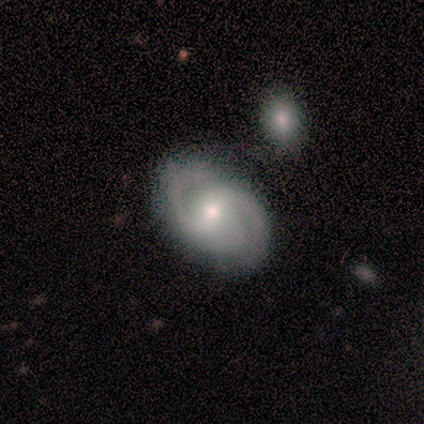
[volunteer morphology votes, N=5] type=featured or disk (100%); edge-on=no (100%); bar=weak (60%); spiral arms=yes (100%); winding=medium (60%); arm count=3 (60%); bulge=small (80%); merging=none (60%).